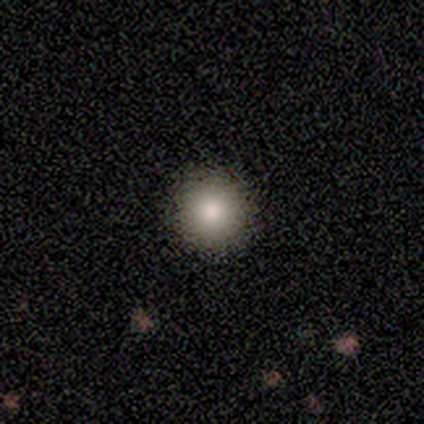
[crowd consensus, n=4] This appears to be a smooth galaxy with no disk features (100%) that is round (75%). Merging: none (50%).